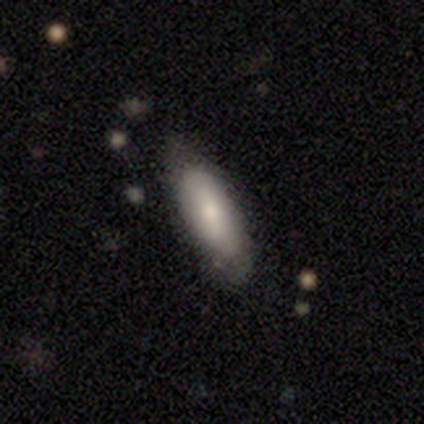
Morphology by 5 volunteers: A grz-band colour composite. It shows a smooth galaxy with no disk features (80%) that is in between round and cigar-shaped (75%). Merging: none (80%).